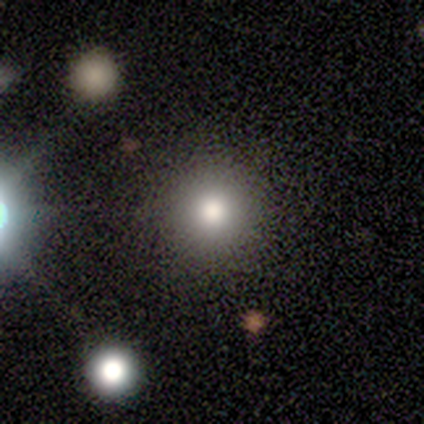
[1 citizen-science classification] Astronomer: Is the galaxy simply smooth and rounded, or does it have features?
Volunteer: star or artifact — 100%.